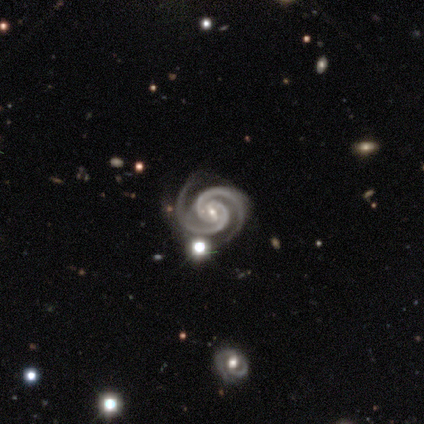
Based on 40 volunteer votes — Q: Smooth or featured?
A: featured or disk (95%); runner-up: smooth (2%)
Q: Edge-on disk?
A: no (100%)
Q: Bar?
A: weak (50%); runner-up: strong (34%)
Q: Spiral arms?
A: yes (100%)
Q: Spiral winding?
A: tight (61%); runner-up: medium (37%)
Q: Spiral arm count?
A: 2 (95%); runner-up: 4 (3%)
Q: Bulge size?
A: small (71%); runner-up: moderate (29%)
Q: Merging?
A: none (85%); runner-up: minor disturbance (8%)